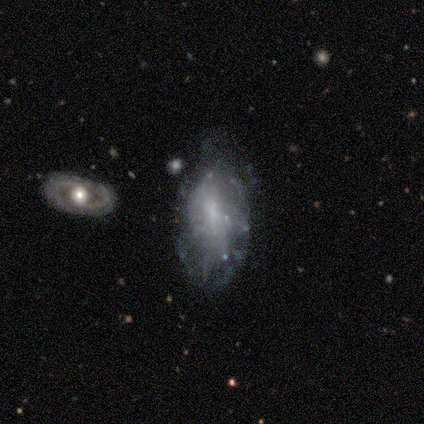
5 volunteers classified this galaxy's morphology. featured or disk 100%, smooth 0%, star or artifact 0%. Down the decision tree: edge-on disk — no (80%); bar — weak (50%, tied with no); spiral arms — no (75%); bulge size — small (75%); merging — major disturbance (40%).